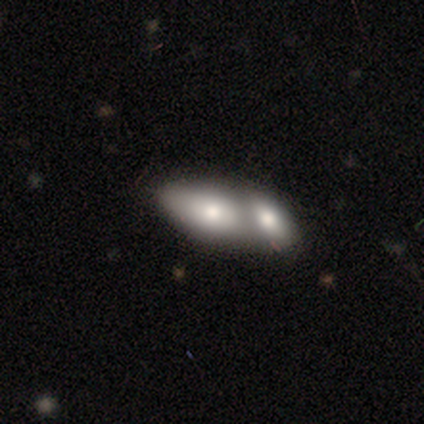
Q: Smooth or featured?
A: smooth (60%); runner-up: featured or disk (40%)
Q: How rounded?
A: in between (100%)
Q: Merging?
A: merger (100%)